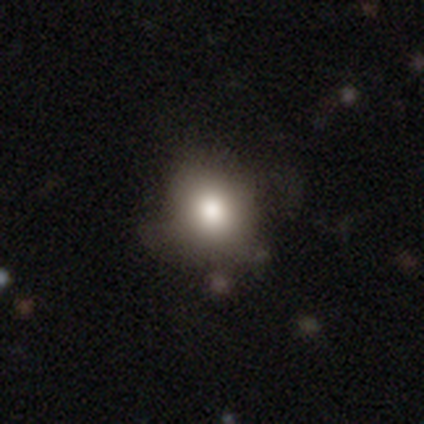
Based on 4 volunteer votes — Volunteers were most divided on "smooth or featured" (2-way tie): smooth: 50%, featured or disk: 50%, star or artifact: 0%. More confident: how rounded — round (100%); merging — none (100%).